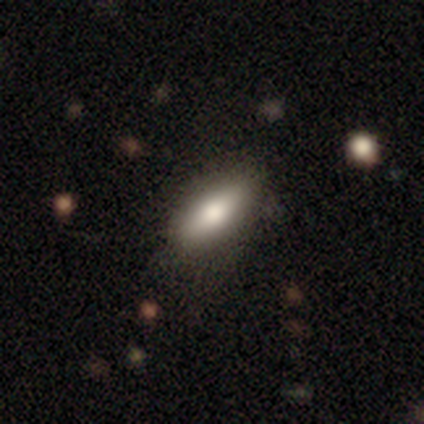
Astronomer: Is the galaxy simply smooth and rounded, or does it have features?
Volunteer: smooth — 80%.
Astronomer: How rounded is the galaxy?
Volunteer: in between — 75%.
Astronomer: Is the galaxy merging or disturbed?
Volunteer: none — 60% (runner-up: minor disturbance, 40%).